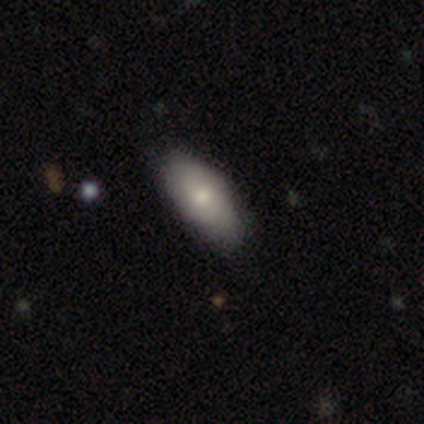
smooth 100%, featured or disk 0%, star or artifact 0%. Down the decision tree: how rounded — in between (100%); merging — none (60%).